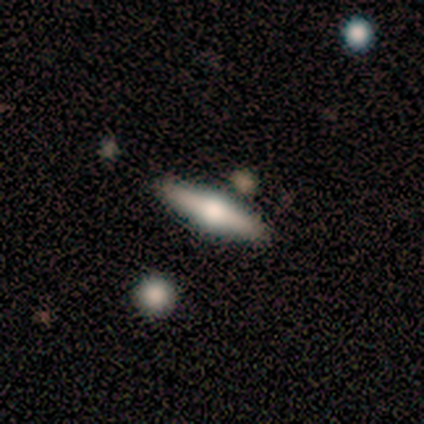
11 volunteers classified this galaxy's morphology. smooth_or_featured: featured or disk (p=0.64) [alt: smooth p=0.36]
disk_edge_on: yes (p=1.00)
edge_on_bulge: rounded (p=1.00)
merging: none (p=0.91) [alt: minor disturbance p=0.09]